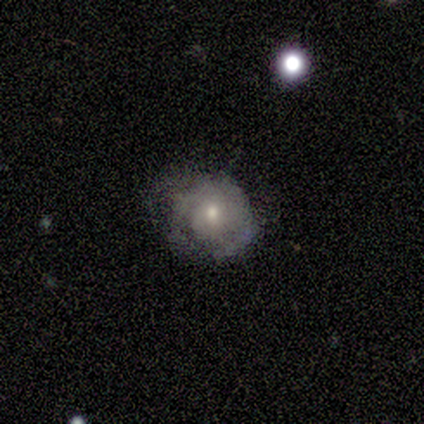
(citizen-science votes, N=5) Overall: smooth (40%, tied with featured or disk). How rounded: round (100%). Merging: none (50%, tied with major disturbance).